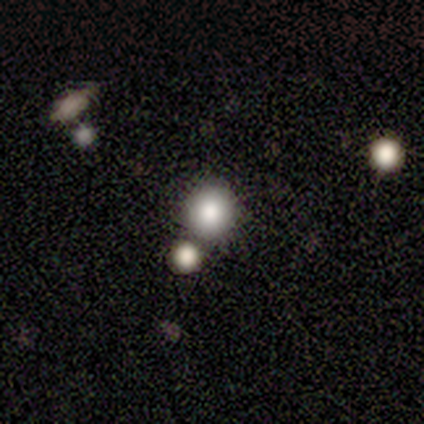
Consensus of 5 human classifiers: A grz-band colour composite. It shows a smooth galaxy with no disk features (100%) that is round (100%). Merging: none (60%).